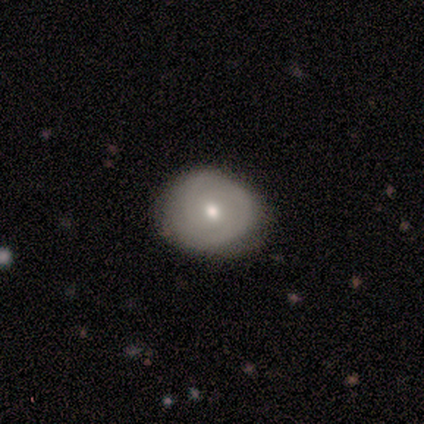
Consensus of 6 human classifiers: smooth-or-featured: featured or disk: 83% | smooth: 17% | star or artifact: 0%
  disk-edge-on: no: 80% | yes: 20%
    bar: no: 75% | weak: 25% | strong: 0%
    has-spiral-arms: yes: 50% (tied) | no: 50% (tied)
      spiral-winding: tight: 100% | medium: 0% | loose: 0%
      spiral-arm-count: can't tell: 100% | 1: 0% | 2: 0% | 3: 0% | 4: 0% | more than 4: 0%
    bulge-size: small: 75% | moderate: 25% | dominant: 0% | large: 0% | none: 0%
  merging: none: 83% | minor disturbance: 17% | major disturbance: 0% | merger: 0%